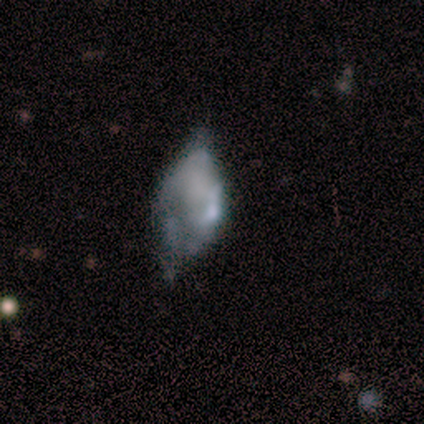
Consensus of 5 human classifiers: Smooth or featured? 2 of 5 (40%, tied with star or artifact) said featured or disk. Edge-on disk? 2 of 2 (100%) said no. Bar? 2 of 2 (100%) said no. Spiral arms? 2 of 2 (100%) said no. Bulge size? 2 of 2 (100%) said none. Merging? 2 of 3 (67%) said major disturbance.